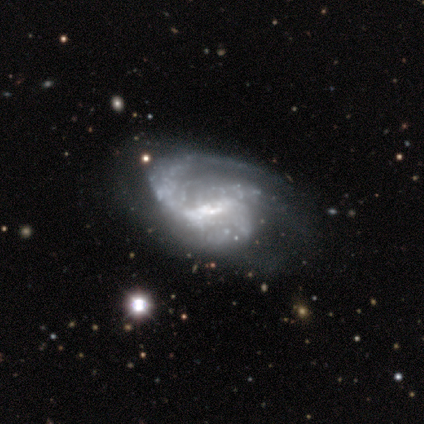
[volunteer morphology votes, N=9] Smooth or featured?
  - featured or disk: 78% *
  - star or artifact: 22%
  - smooth: 0%
Edge-on disk?
  - no: 86% *
  - yes: 14%
Bar?
  - strong: 50% * (tied)
  - weak: 50% * (tied)
  - no: 0%
Spiral arms?
  - yes: 100% *
  - no: 0%
Spiral winding?
  - medium: 50% *
  - loose: 33%
  - tight: 17%
Spiral arm count?
  - 1: 33% * (tied)
  - 2: 33% * (tied)
  - 3: 17%
  - can't tell: 17%
  - 4: 0%
  - more than 4: 0%
Bulge size?
  - moderate: 83% *
  - small: 17%
  - dominant: 0%
  - large: 0%
  - none: 0%
Merging?
  - none: 43% *
  - minor disturbance: 29%
  - major disturbance: 29%
  - merger: 0%